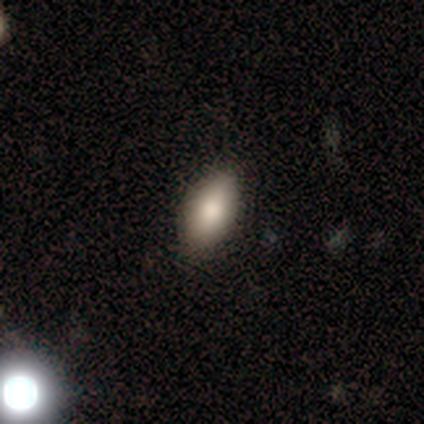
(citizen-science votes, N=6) Smooth or featured?
  - smooth: 67% *
  - featured or disk: 17%
  - star or artifact: 17%
How rounded?
  - in between: 75% *
  - cigar-shaped: 25%
  - round: 0%
Merging?
  - none: 100% *
  - minor disturbance: 0%
  - major disturbance: 0%
  - merger: 0%